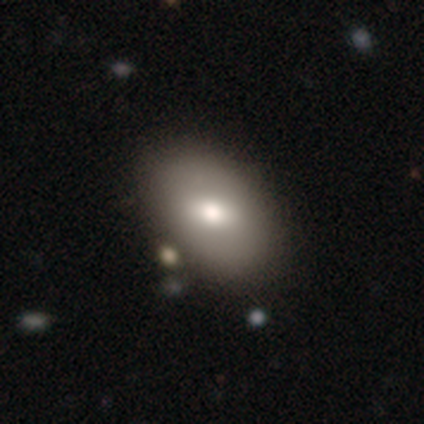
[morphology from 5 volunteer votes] Smooth or featured? 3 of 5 (60%) said smooth. How rounded? 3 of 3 (100%) said in between. Merging? 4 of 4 (100%) said none.